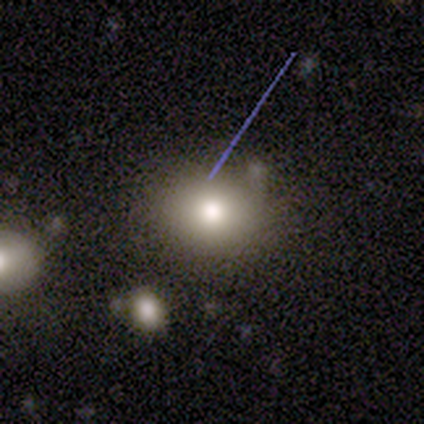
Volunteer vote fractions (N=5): This is marginally a smooth galaxy (40%, tied with star or artifact). How rounded: possibly round (50%, tied with in between). Merging: likely none (67%).